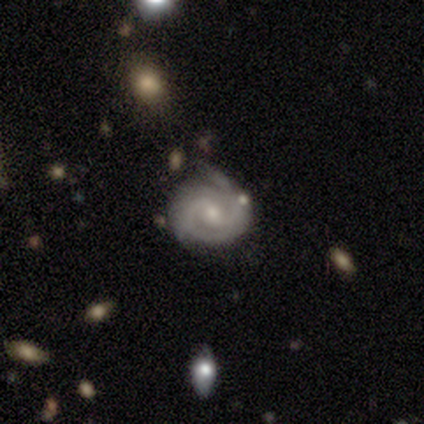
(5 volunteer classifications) Smooth or featured? featured or disk (80%)
Edge-on disk? no (75%)
Bar? no (67%)
Spiral arms? yes (100%)
Spiral winding? tight (67%)
Spiral arm count? 2 (67%)
Bulge size? small (67%)
Merging? none (75%)